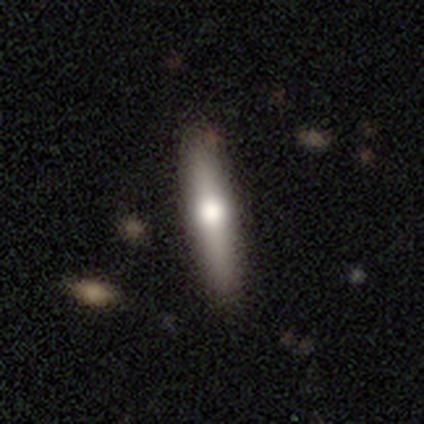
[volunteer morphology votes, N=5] Overall: featured or disk (60%; smooth 20%). Edge-on disk: yes (100%). Edge-on bulge: rounded (67%; boxy 33%). Merging: none (100%).